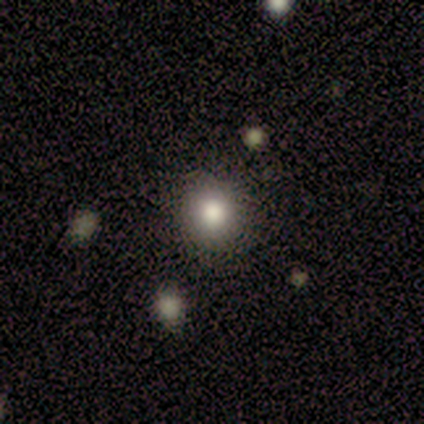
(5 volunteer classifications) Q: Smooth or featured?
A: smooth (60%); runner-up: star or artifact (40%)
Q: How rounded?
A: round (100%)
Q: Merging?
A: none (67%); runner-up: minor disturbance (33%)